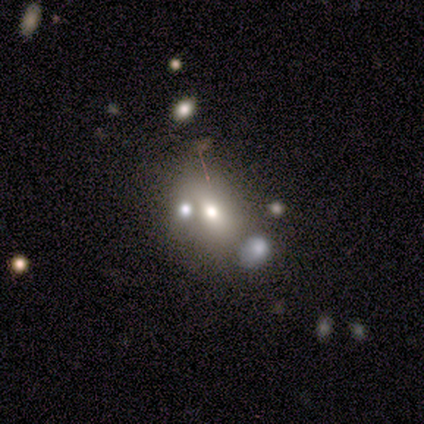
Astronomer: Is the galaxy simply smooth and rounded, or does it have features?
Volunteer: featured or disk — 60% (runner-up: smooth, 40%).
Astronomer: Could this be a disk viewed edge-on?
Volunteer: no — 100%.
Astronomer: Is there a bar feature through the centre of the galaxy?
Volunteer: no — 67%.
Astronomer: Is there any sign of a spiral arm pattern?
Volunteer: no — 100%.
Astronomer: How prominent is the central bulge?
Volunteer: small — 67%.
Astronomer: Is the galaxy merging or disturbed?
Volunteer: merger — 80%.